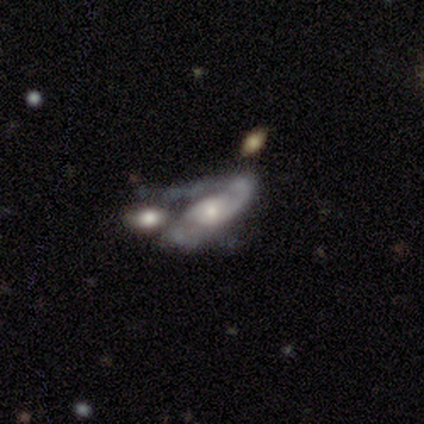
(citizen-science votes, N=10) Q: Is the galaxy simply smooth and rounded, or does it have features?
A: featured or disk — 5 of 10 (50%).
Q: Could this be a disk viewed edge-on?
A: no — 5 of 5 (100%).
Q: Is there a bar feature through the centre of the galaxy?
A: no — 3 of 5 (60%).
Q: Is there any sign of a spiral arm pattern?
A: yes — 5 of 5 (100%).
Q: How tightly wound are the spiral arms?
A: tight — 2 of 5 (40%, tied with medium).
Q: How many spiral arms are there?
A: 2 — 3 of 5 (60%).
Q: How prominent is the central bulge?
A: moderate — 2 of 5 (40%, tied with small).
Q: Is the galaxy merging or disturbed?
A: none — 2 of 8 (25%, tied with minor disturbance, major disturbance and merger).